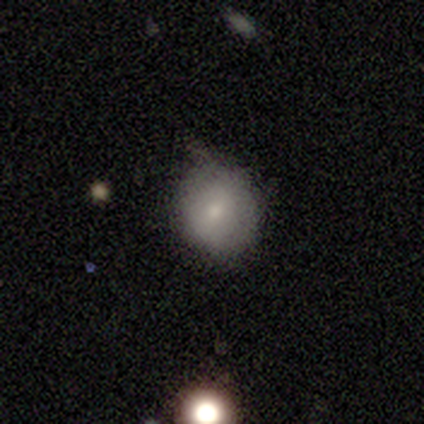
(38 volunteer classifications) Overall: smooth (89%). How rounded: round (91%). Merging: none (58%; minor disturbance 34%).